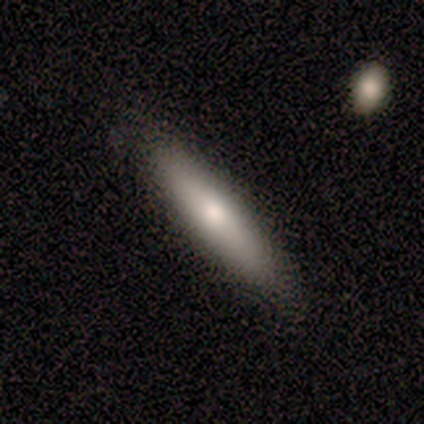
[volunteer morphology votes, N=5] This is likely a smooth galaxy (60%). How rounded: likely in between (67%). Merging: clearly none (80%).